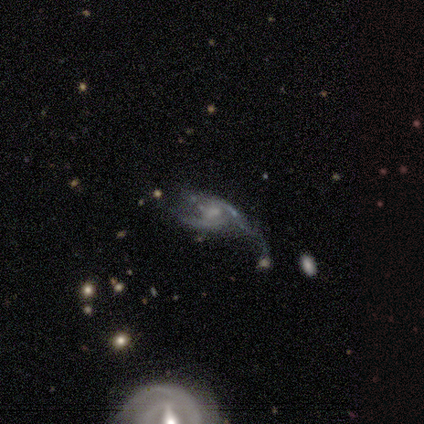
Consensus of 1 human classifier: smooth-or-featured: smooth: 100% | featured or disk: 0% | star or artifact: 0%
  how-rounded: in between: 100% | round: 0% | cigar-shaped: 0%
  merging: major disturbance: 100% | none: 0% | minor disturbance: 0% | merger: 0%